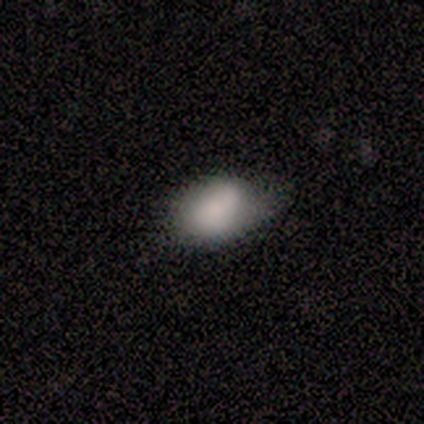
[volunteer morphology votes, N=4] Smooth or featured? 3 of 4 (75%) said smooth. How rounded? 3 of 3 (100%) said in between. Merging? 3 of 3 (100%) said minor disturbance.